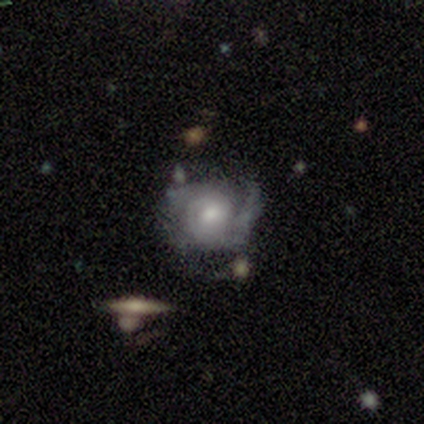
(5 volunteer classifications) smooth_or_featured: featured or disk (p=1.00)
disk_edge_on: no (p=1.00)
bar: no (p=0.80) [alt: weak p=0.20]
has_spiral_arms: yes (p=1.00)
spiral_winding: tight (p=1.00)
spiral_arm_count: 2 (p=0.60) [alt: can't tell p=0.40]
bulge_size: moderate (p=0.80) [alt: small p=0.20]
merging: none (p=0.60) [alt: minor disturbance p=0.20]